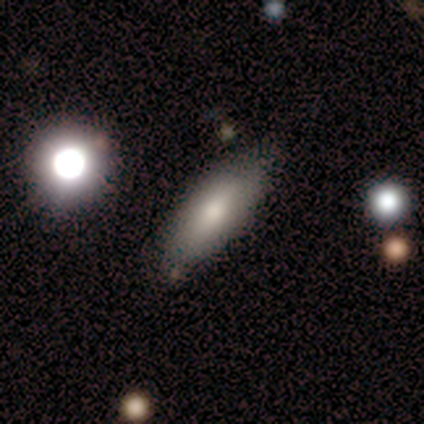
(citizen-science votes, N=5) smooth_or_featured: smooth (p=0.80) [alt: featured or disk p=0.20]
how_rounded: in between (p=0.75) [alt: cigar-shaped p=0.25]
merging: none (p=1.00)